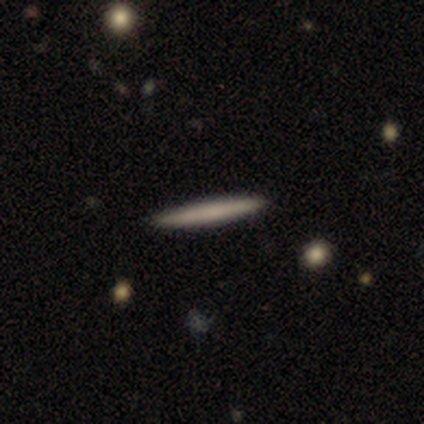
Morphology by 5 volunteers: A smooth galaxy with no disk features (60%) that is cigar-shaped (100%). Merging: none (100%).